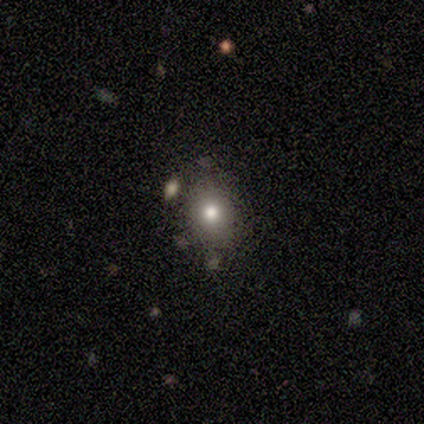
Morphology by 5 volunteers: Smooth or featured?
  - smooth: 60% *
  - featured or disk: 20%
  - star or artifact: 20%
How rounded?
  - round: 67% *
  - in between: 33%
  - cigar-shaped: 0%
Merging?
  - none: 100% *
  - minor disturbance: 0%
  - major disturbance: 0%
  - merger: 0%